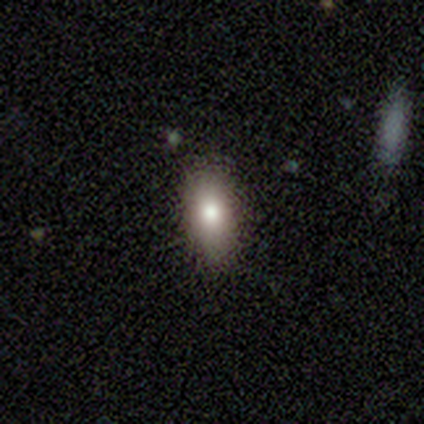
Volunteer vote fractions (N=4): smooth 100%, featured or disk 0%, star or artifact 0%. Down the decision tree: how rounded — in between (50%); merging — none (100%).